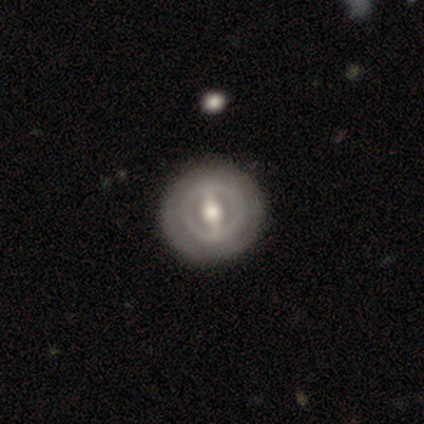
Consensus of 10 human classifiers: Smooth or featured? featured or disk (90%)
Edge-on disk? no (100%)
Bar? strong (78%)
Spiral arms? no (89%)
Bulge size? moderate (89%)
Merging? none (90%)